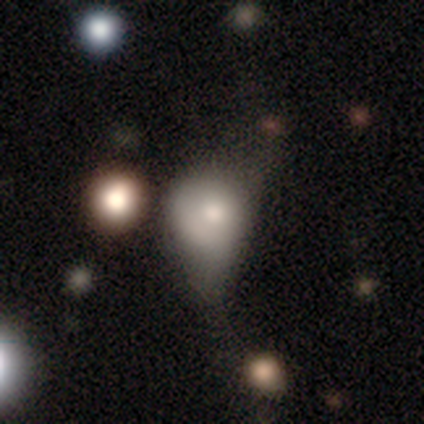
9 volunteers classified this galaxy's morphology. Overall: smooth (78%). How rounded: in between (57%; round 43%). Merging: minor disturbance (50%; major disturbance 38%).